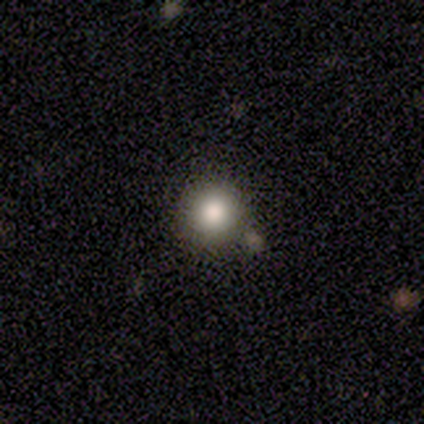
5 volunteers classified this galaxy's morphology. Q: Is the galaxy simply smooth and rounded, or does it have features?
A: smooth — 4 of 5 (80%).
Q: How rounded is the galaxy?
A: round — 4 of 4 (100%).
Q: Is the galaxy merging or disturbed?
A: none — 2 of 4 (50%, tied with minor disturbance).